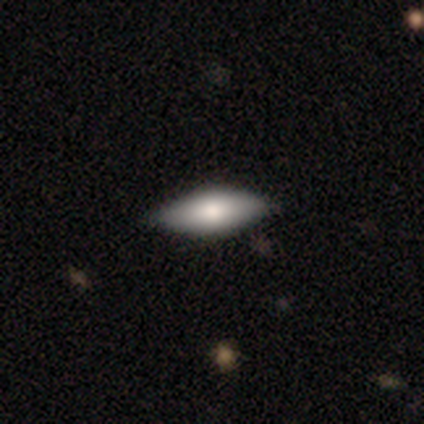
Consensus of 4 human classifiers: smooth_or_featured: smooth (p=0.50) [alt: featured or disk p=0.25]
how_rounded: in between (p=1.00)
merging: minor disturbance (p=0.67) [alt: none p=0.33]